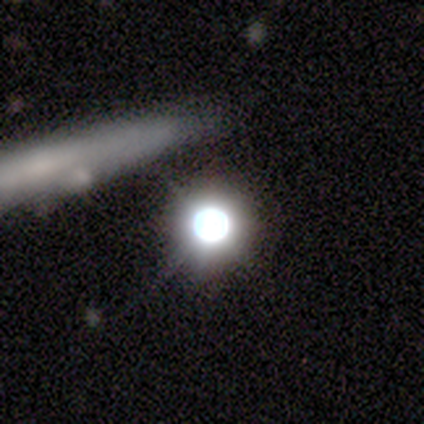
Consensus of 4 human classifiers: This appears to be a star or artifact, not a galaxy (50%).